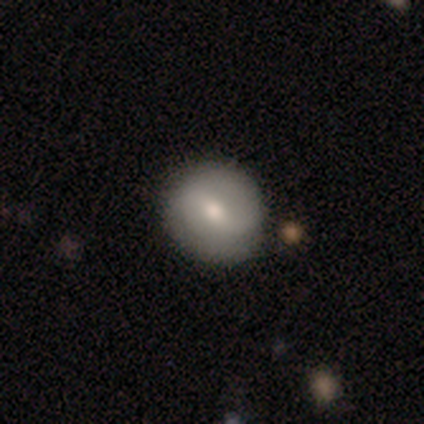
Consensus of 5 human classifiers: A smooth galaxy with no disk features (60%) that is round (100%).

Vote fractions:
- Smooth or featured? smooth: 60% / featured or disk: 40% / star or artifact: 0%
- How rounded? round: 100% / in between: 0% / cigar-shaped: 0%
- Merging? none: 60% / minor disturbance: 20% / merger: 20% / major disturbance: 0%